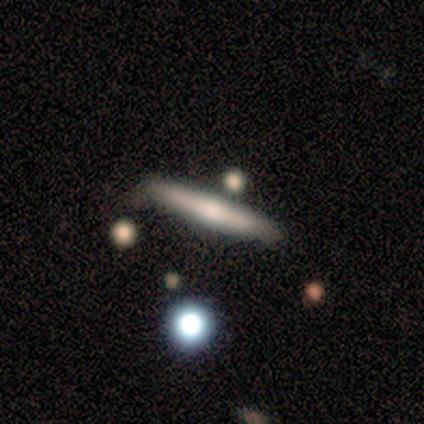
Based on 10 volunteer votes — Overall: smooth (80%). How rounded: cigar-shaped (100%). Merging: none (90%).